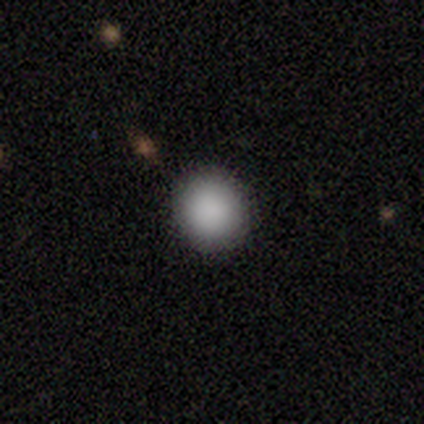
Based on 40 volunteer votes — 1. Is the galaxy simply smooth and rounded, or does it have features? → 88% smooth, 8% featured or disk, 5% star or artifact.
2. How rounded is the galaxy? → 91% round, 9% in between, 0% cigar-shaped.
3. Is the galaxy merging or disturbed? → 95% none, 5% minor disturbance, 0% major disturbance, 0% merger.